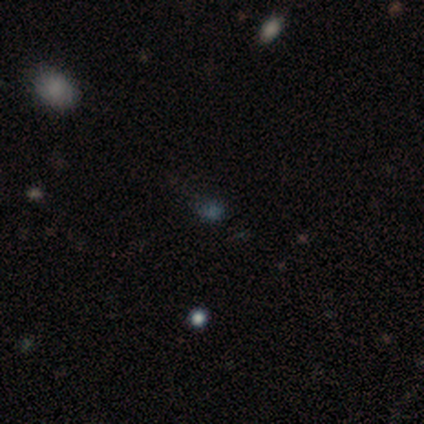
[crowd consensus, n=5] A smooth galaxy with no disk features (80%) that is round (75%).

Vote fractions:
- Smooth or featured? smooth: 80% / featured or disk: 20% / star or artifact: 0%
- How rounded? round: 75% / in between: 25% / cigar-shaped: 0%
- Merging? none: 60% / minor disturbance: 40% / major disturbance: 0% / merger: 0%